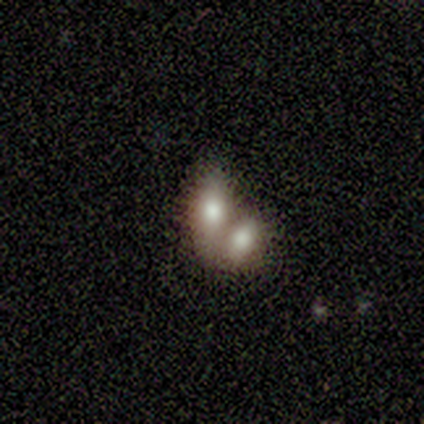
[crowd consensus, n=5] Q: Smooth or featured?
A: smooth (60%); runner-up: featured or disk (20%)
Q: How rounded?
A: in between (100%)
Q: Merging?
A: none (50%); runner-up: minor disturbance (25%)